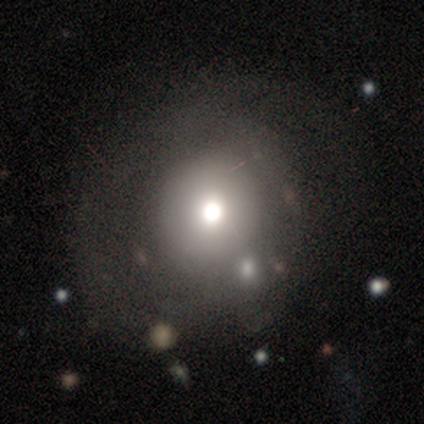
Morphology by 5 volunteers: This appears to be a smooth galaxy with no disk features (40%, tied with featured or disk) that is round (100%). Merging: none (75%).